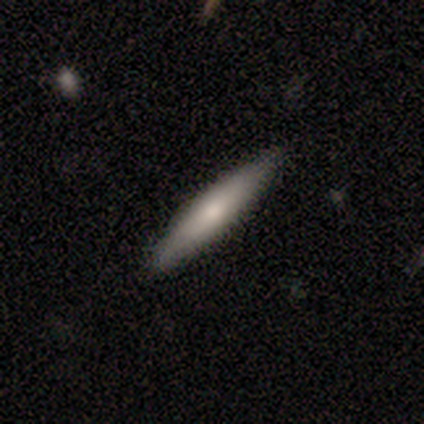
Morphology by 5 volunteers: A smooth galaxy with no disk features (60%) that is cigar-shaped (67%). Merging: none (80%).